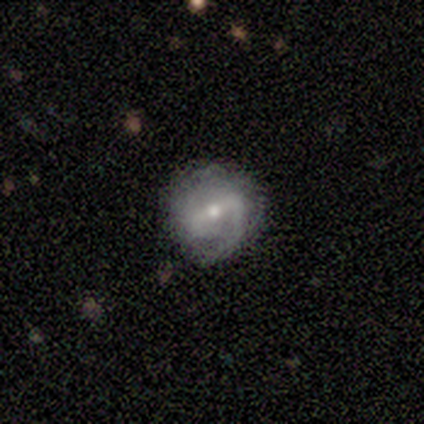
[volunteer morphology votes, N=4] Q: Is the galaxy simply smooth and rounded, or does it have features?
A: featured or disk — 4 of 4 (100%).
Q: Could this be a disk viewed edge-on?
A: no — 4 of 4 (100%).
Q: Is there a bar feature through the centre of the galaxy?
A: weak — 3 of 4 (75%).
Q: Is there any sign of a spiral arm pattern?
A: yes — 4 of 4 (100%).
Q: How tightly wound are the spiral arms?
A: medium — 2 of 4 (50%).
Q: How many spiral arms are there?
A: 2 — 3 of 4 (75%).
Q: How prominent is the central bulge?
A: small — 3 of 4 (75%).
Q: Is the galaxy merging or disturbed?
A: none — 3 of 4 (75%).